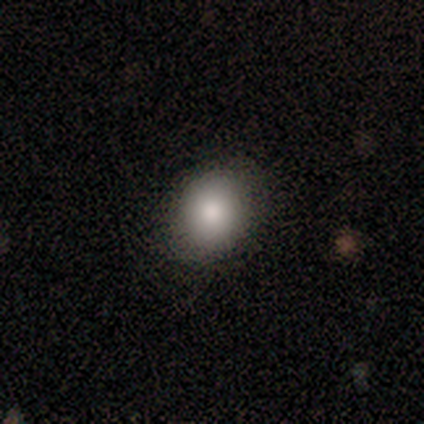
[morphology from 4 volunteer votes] A smooth galaxy with no disk features (75%) that is round (100%). Merging: none (100%).